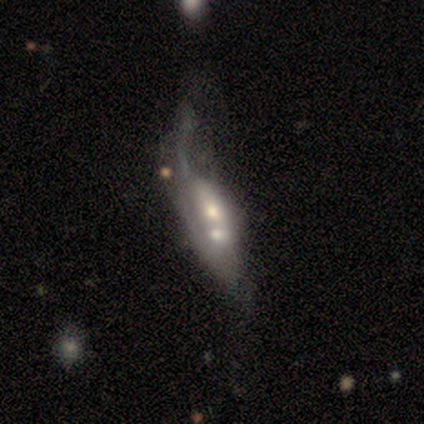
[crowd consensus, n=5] A featured or disk galaxy (100%) with no bar (100%), no spiral arms (67%) and a moderate central bulge (100%).

Vote fractions:
- Smooth or featured? featured or disk: 100% / smooth: 0% / star or artifact: 0%
- Edge-on disk? no: 60% / yes: 40%
- Bar? no: 100% / strong: 0% / weak: 0%
- Spiral arms? no: 67% / yes: 33%
- Bulge size? moderate: 100% / dominant: 0% / large: 0% / small: 0% / none: 0%
- Merging? merger: 60% / major disturbance: 40% / none: 0% / minor disturbance: 0%